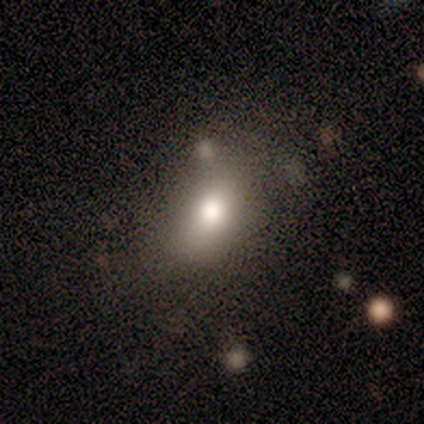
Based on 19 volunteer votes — Overall: smooth (63%; featured or disk 32%). How rounded: in between (67%; round 33%). Merging: minor disturbance (56%; none 33%).